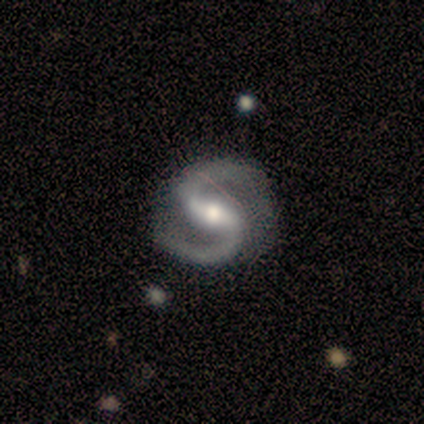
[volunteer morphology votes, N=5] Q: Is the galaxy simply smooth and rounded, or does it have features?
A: featured or disk — 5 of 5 (100%).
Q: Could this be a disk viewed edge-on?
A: no — 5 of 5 (100%).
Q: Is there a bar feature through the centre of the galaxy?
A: weak — 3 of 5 (60%).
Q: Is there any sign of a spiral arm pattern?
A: yes — 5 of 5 (100%).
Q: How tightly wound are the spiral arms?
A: medium — 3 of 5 (60%).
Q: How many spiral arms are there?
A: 2 — 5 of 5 (100%).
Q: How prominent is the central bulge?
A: moderate — 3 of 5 (60%).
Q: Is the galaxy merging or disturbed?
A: none — 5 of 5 (100%).